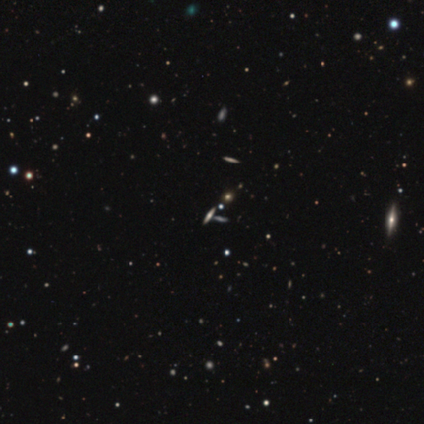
smooth 50%, featured or disk 25%, star or artifact 25%. Down the decision tree: how rounded — round (50%, tied with in between); merging — none (67%).